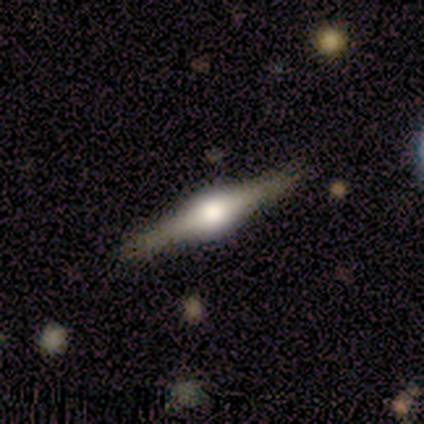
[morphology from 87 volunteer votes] Smooth or featured? featured or disk (85%)
Edge-on disk? yes (100%)
Edge-on bulge? rounded (95%)
Merging? none (90%)